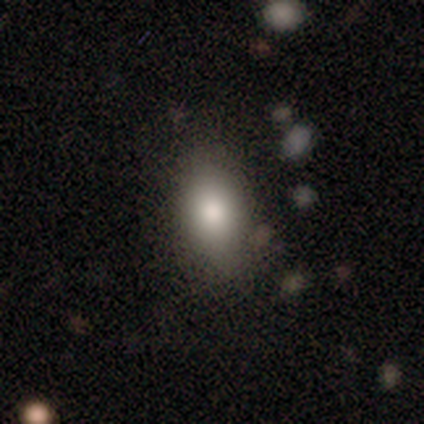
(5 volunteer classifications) A smooth galaxy with no disk features (100%) that is in between round and cigar-shaped (80%). Merging: none (80%).